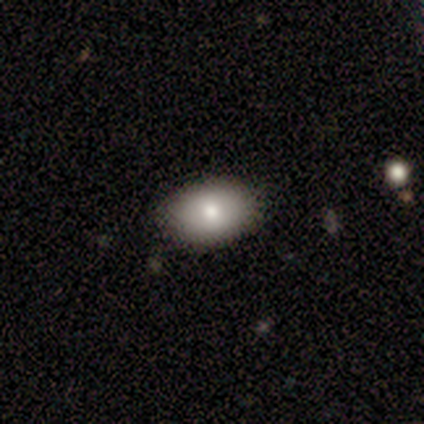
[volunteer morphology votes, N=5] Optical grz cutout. It shows a smooth galaxy with no disk features (80%) that is in between round and cigar-shaped (100%). Merging: none (100%).